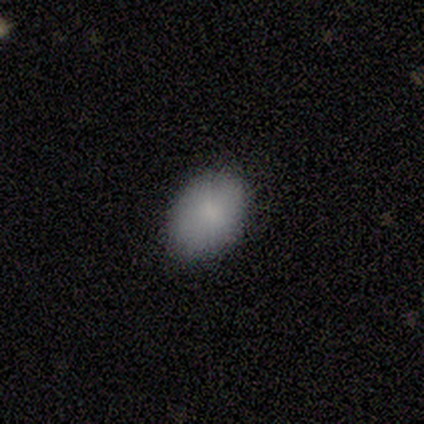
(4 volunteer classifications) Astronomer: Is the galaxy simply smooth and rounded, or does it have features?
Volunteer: smooth — 100%.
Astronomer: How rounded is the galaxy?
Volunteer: in between — 100%.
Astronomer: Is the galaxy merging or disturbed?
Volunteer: none — 100%.